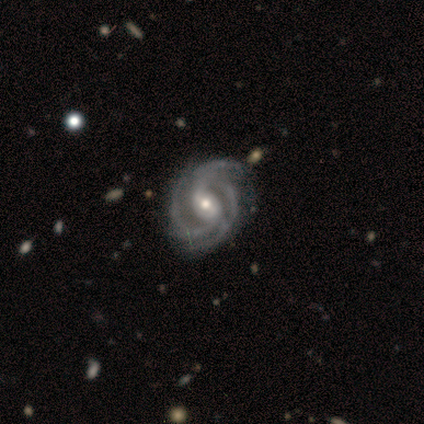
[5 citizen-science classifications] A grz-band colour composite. It shows a featured or disk galaxy (100%) with no bar (60%), 3 (40%, tied with 4) tight (100%) spiral arms (100%) and a moderate central bulge (80%). Merging: none (100%).